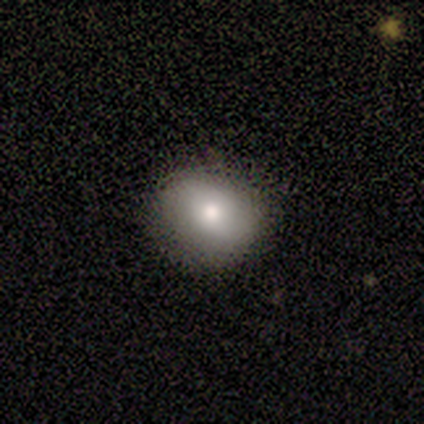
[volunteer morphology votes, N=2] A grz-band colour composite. It shows a smooth galaxy with no disk features (100%) that is round (100%). Merging: none (100%).